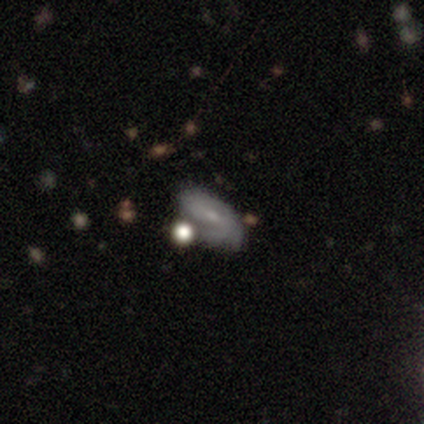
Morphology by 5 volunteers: Volunteers were most divided on "smooth or featured" (2-way tie): smooth: 40%, featured or disk: 40%, star or artifact: 20%. More confident: how rounded — in between (100%); merging — none (50%).